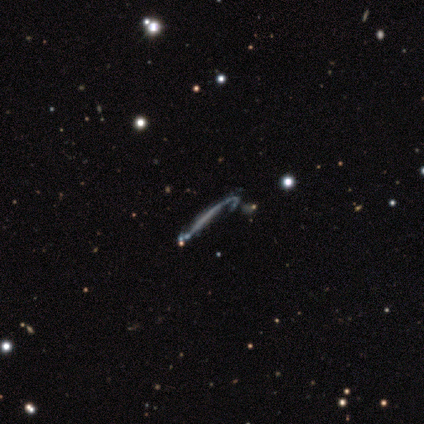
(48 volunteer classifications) Volunteers were most divided on "merging": major disturbance: 34%, minor disturbance: 32%, none: 23%, merger: 11%. More confident: smooth or featured — featured or disk (88%); edge-on bulge — none (86%); edge-on disk — yes (67%).